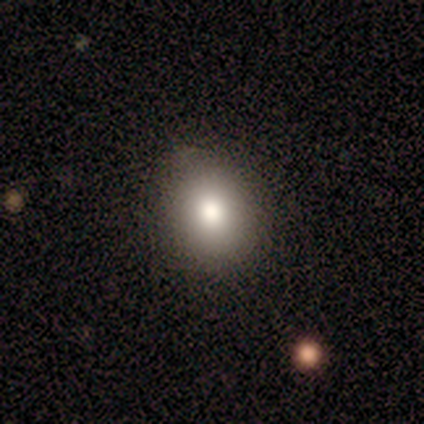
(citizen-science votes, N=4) Volunteers were most divided on "how rounded": in between: 75%, round: 25%, cigar-shaped: 0%. More confident: smooth or featured — smooth (100%); merging — none (75%).